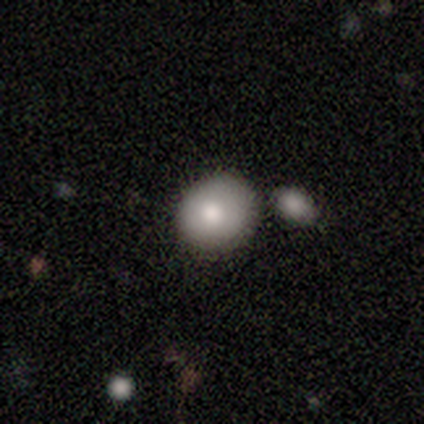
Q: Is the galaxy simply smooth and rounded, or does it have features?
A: smooth — 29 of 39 (74%).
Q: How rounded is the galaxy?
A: round — 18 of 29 (62%).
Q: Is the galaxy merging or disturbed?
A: none — 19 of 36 (53%).